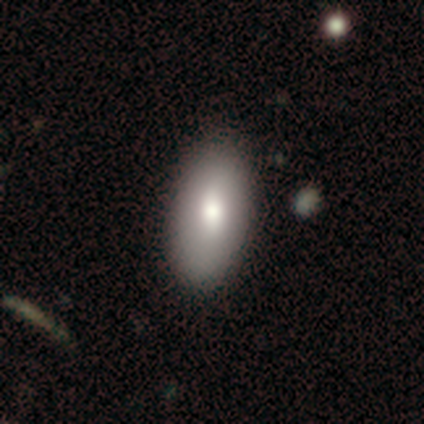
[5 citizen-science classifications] Smooth or featured? 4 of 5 (80%) said smooth. How rounded? 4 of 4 (100%) said in between. Merging? 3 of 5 (60%) said minor disturbance.